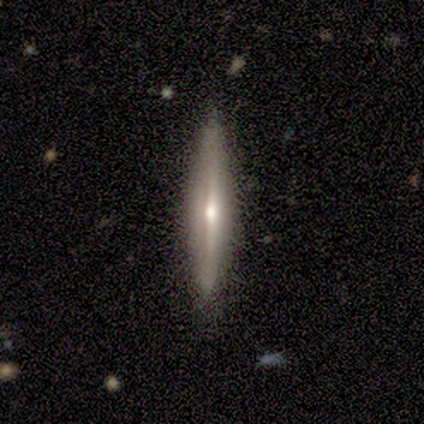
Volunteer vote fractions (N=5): Smooth or featured: featured or disk — 100%
Edge-on disk: yes — 100%
Edge-on bulge: rounded — 100%
Merging: none — 100%